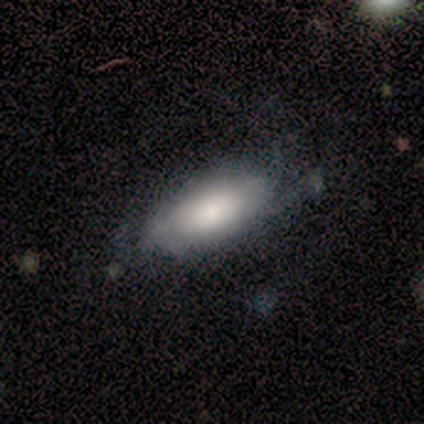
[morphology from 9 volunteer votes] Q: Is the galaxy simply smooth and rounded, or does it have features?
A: smooth — 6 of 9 (67%).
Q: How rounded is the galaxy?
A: in between — 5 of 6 (83%).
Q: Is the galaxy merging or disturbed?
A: none — 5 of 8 (62%).